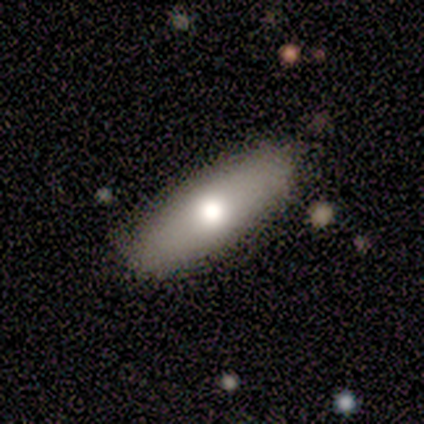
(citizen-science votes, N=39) A smooth galaxy with no disk features (69%) that is in between round and cigar-shaped (59%).

Vote fractions:
- Smooth or featured? smooth: 69% / featured or disk: 23% / star or artifact: 8%
- How rounded? in between: 59% / cigar-shaped: 37% / round: 4%
- Merging? none: 89% / minor disturbance: 8% / major disturbance: 3% / merger: 0%